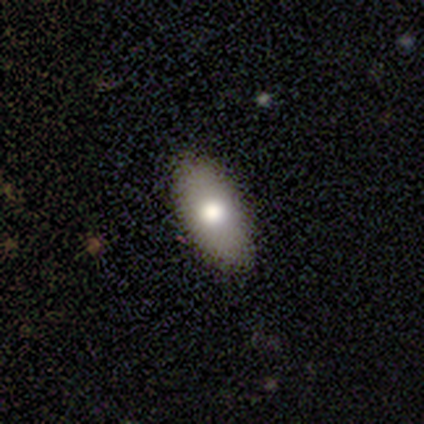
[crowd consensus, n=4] Smooth or featured? 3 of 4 (75%) said smooth. How rounded? 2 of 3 (67%) said in between. Merging? 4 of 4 (100%) said none.